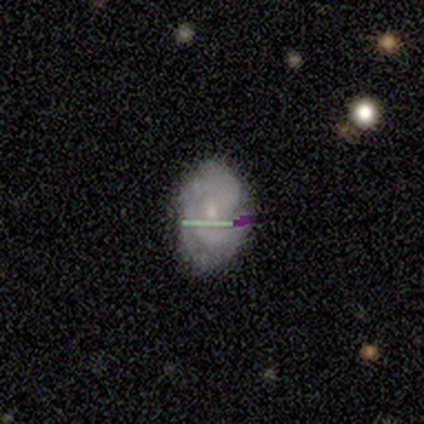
smooth-or-featured: featured or disk: 80% | star or artifact: 20% | smooth: 0%
  disk-edge-on: no: 100% | yes: 0%
    bar: no: 75% | weak: 25% | strong: 0%
    has-spiral-arms: yes: 75% | no: 25%
      spiral-winding: medium: 67% | tight: 33% | loose: 0%
      spiral-arm-count: can't tell: 67% | 2: 33% | 1: 0% | 3: 0% | 4: 0% | more than 4: 0%
    bulge-size: small: 100% | dominant: 0% | large: 0% | moderate: 0% | none: 0%
  merging: none: 100% | minor disturbance: 0% | major disturbance: 0% | merger: 0%